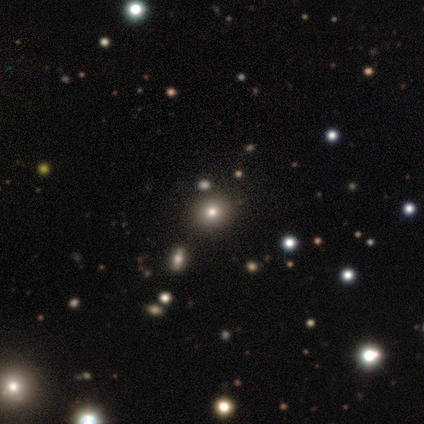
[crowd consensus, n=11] smooth-or-featured: star or artifact: 45% | smooth: 36% | featured or disk: 18%